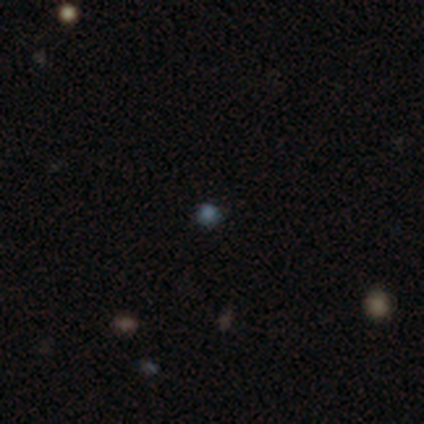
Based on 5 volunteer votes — Smooth or featured: smooth — 80% (star or artifact — 20%)
How rounded: round — 100%
Merging: none — 100%